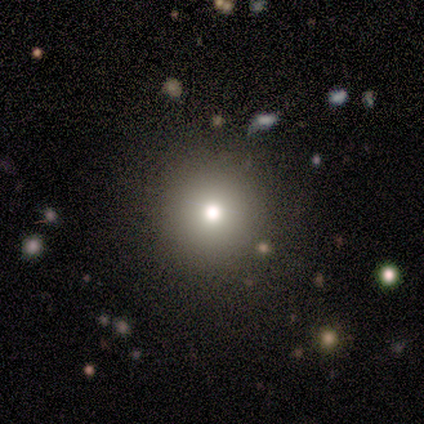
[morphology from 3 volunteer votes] Smooth or featured: featured or disk — 67% (smooth — 33%)
Edge-on disk: no — 100%
Bar: no — 100%
Spiral arms: no — 100%
Bulge size: large — 50% (tied with moderate — 50%)
Merging: minor disturbance — 67% (none — 33%)